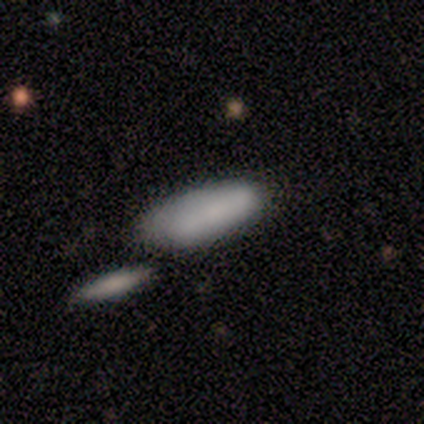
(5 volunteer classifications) Smooth or featured? 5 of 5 (100%) said smooth. How rounded? 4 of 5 (80%) said in between. Merging? 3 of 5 (60%) said none.